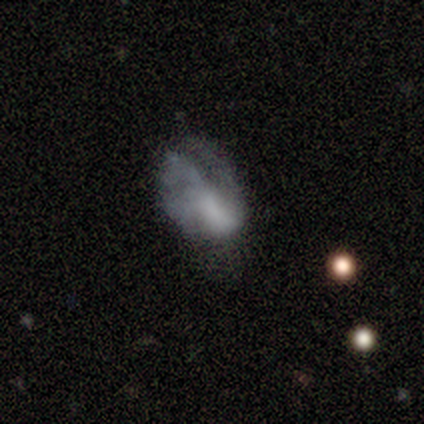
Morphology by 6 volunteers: Overall: smooth (67%). How rounded: in between (50%, tied with cigar-shaped). Merging: none (60%; minor disturbance 20%).